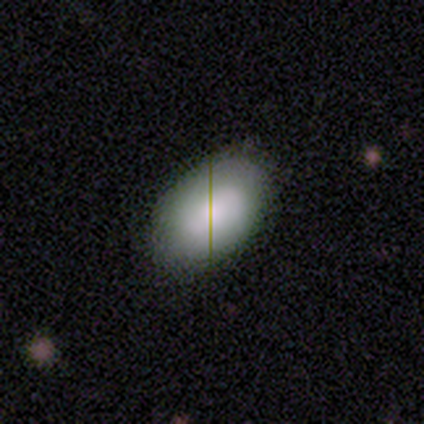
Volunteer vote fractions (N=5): smooth 100%, featured or disk 0%, star or artifact 0%. Down the decision tree: how rounded — in between (80%); merging — none (80%).